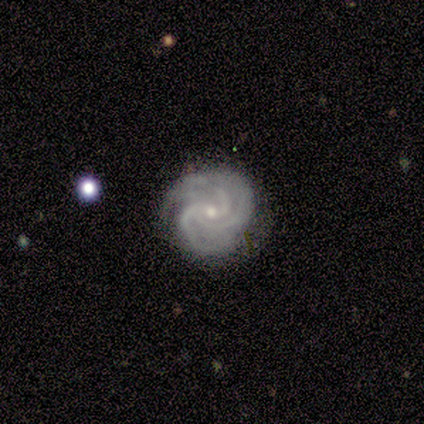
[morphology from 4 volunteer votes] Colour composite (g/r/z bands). It shows a featured or disk galaxy (75%) with no bar (100%), 3 (100%) medium (100%) spiral arms (100%) and a small central bulge (100%). Merging: none (75%).